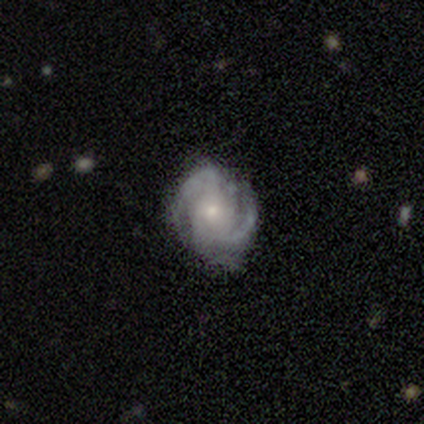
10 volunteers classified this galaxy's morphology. smooth_or_featured: featured or disk (p=0.80) [alt: smooth p=0.10]
disk_edge_on: no (p=1.00)
bar: no (p=0.62) [alt: weak p=0.38]
has_spiral_arms: yes (p=1.00)
spiral_winding: tight (p=0.62) [alt: medium p=0.38]
spiral_arm_count: 2 (p=0.50) [alt: 3 p=0.38]
bulge_size: small (p=0.50) [alt: moderate p=0.38]
merging: minor disturbance (p=0.67) [alt: none p=0.33]